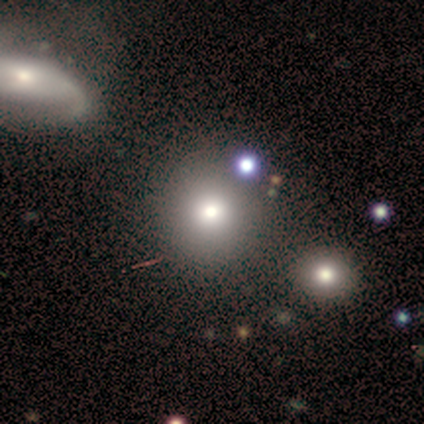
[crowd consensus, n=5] This appears to be a smooth galaxy with no disk features (60%) that is round (100%). Merging: none (100%).